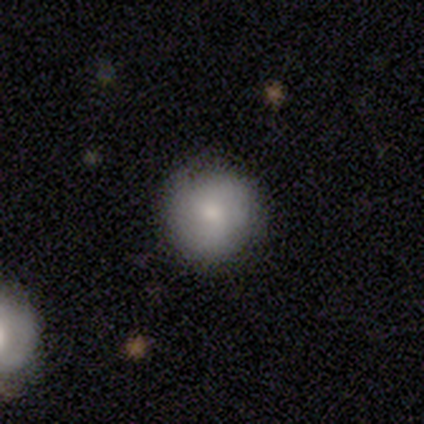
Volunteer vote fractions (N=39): smooth-or-featured: smooth: 64% | featured or disk: 31% | star or artifact: 5%
  how-rounded: round: 100% | in between: 0% | cigar-shaped: 0%
  merging: none: 78% | minor disturbance: 14% | major disturbance: 8% | merger: 0%